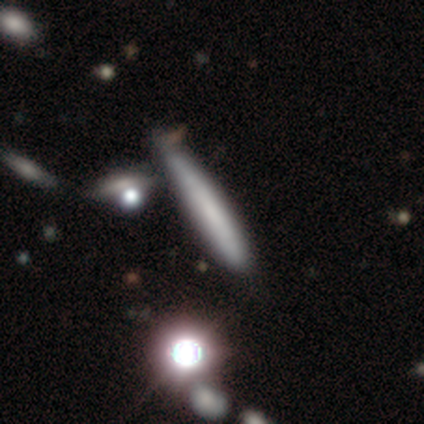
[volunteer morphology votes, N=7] Volunteers were most divided on "merging": none: 67%, minor disturbance: 17%, merger: 17%, major disturbance: 0%. More confident: how rounded — cigar-shaped (100%); smooth or featured — smooth (71%).